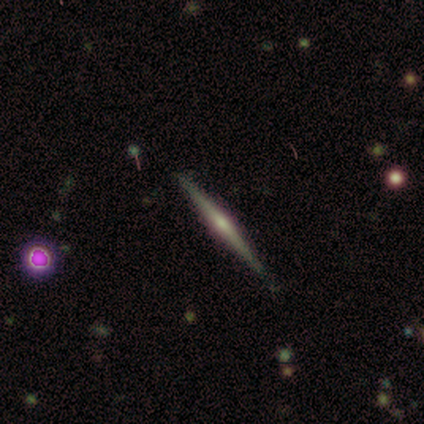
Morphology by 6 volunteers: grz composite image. It shows a featured or disk galaxy (67%) viewed edge-on (100%) with a rounded central bulge (50%). Merging: none (100%).